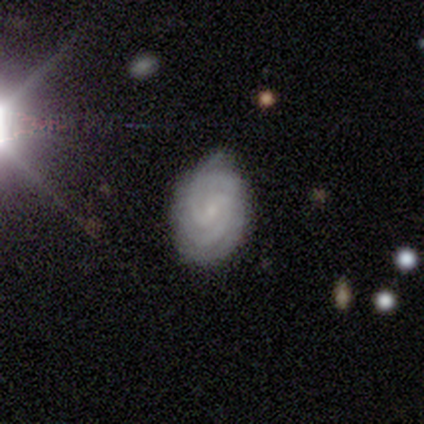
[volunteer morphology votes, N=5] This is likely a featured or disk galaxy (60%). It is clearly not viewed edge-on (100%). Bar: likely no (67%). Spiral arm pattern: clearly yes (100%). Spiral arm count: marginally 2 (33%, tied with 3 and more than 4). Spiral winding: likely tight (67%). Central bulge: clearly small (100%). Merging: marginally none (40%, tied with minor disturbance).